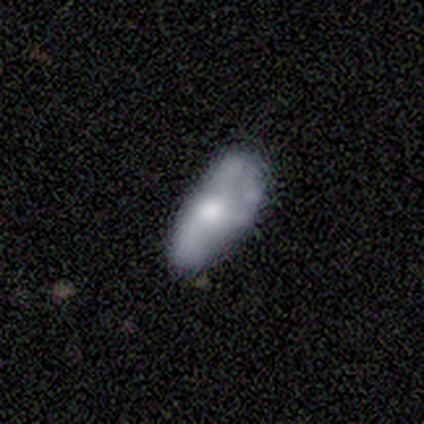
Volunteers were most divided on "merging" (2-way tie): none: 40%, minor disturbance: 40%, major disturbance: 20%, merger: 0%. More confident: bar — no (100%); spiral arms — no (100%); bulge size — moderate (100%); edge-on disk — no (67%); smooth or featured — featured or disk (60%).